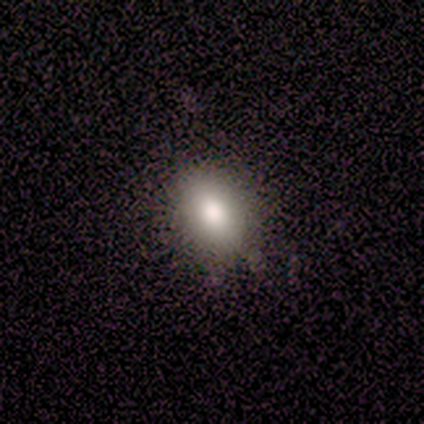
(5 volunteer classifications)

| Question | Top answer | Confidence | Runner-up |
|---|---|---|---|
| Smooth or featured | smooth | 100% | — |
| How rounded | in between | 80% | round (20%) |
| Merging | minor disturbance | 60% | none (20%) |